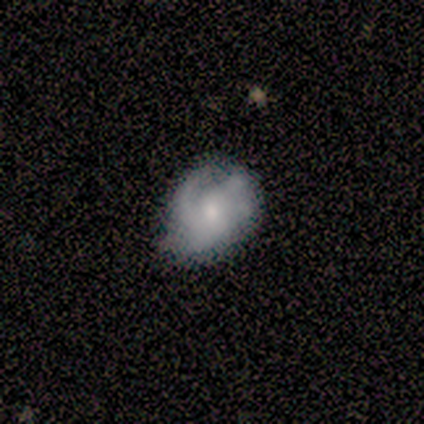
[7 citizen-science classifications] Q: Smooth or featured?
A: featured or disk (57%); runner-up: smooth (43%)
Q: Edge-on disk?
A: no (100%)
Q: Bar?
A: no (100%)
Q: Spiral arms?
A: yes (100%)
Q: Spiral winding?
A: tight (75%); runner-up: medium (25%)
Q: Spiral arm count?
A: 2 (50%); tied with: can't tell (50%)
Q: Bulge size?
A: moderate (50%); tied with: small (50%)
Q: Merging?
A: minor disturbance (57%); runner-up: none (43%)